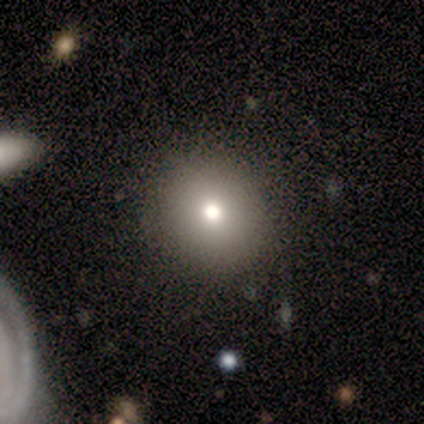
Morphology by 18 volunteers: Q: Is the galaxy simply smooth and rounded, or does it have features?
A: smooth — 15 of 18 (83%).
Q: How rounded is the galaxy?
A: round — 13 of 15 (87%).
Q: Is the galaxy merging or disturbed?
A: none — 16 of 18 (89%).